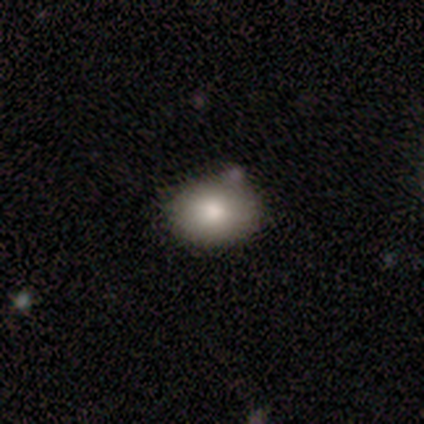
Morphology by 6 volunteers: This is clearly a smooth galaxy (83%). How rounded: clearly in between (80%). Merging: possibly none (50%).